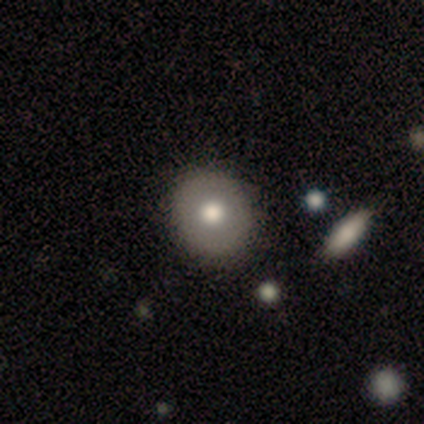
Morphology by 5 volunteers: This appears to be a smooth galaxy with no disk features (80%) that is round (75%). Merging: none (100%).